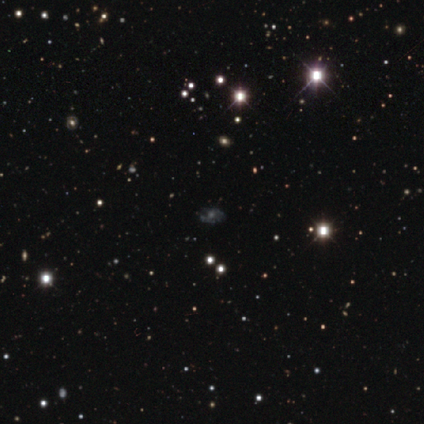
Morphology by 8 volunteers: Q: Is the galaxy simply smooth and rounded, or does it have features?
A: featured or disk — 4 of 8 (50%).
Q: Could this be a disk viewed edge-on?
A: no — 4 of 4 (100%).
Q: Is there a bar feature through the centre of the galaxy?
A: no — 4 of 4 (100%).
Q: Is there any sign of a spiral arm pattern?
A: no — 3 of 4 (75%).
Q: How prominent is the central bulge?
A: small — 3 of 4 (75%).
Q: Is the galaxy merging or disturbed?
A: none — 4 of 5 (80%).